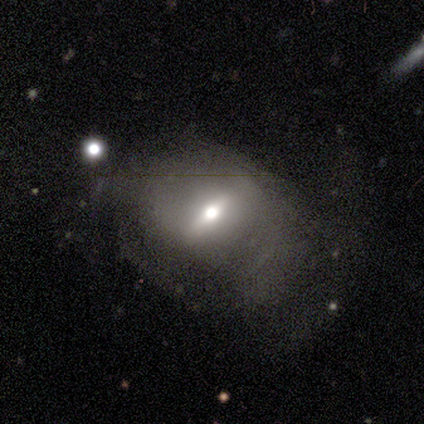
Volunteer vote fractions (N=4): A featured or disk galaxy (75%) viewed edge-on (67%) with a rounded central bulge (100%). Merging: none (75%).